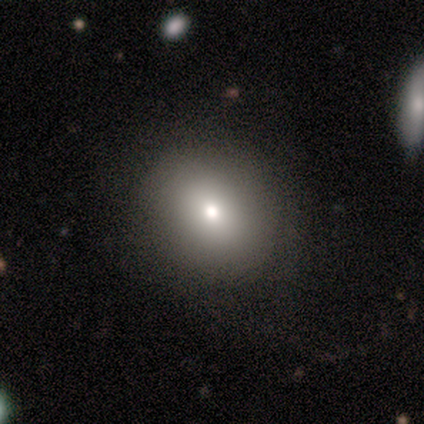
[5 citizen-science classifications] smooth-or-featured: smooth: 40% (tied) | star or artifact: 40% (tied) | featured or disk: 20%
  how-rounded: round: 100% | in between: 0% | cigar-shaped: 0%
  merging: none: 100% | minor disturbance: 0% | major disturbance: 0% | merger: 0%